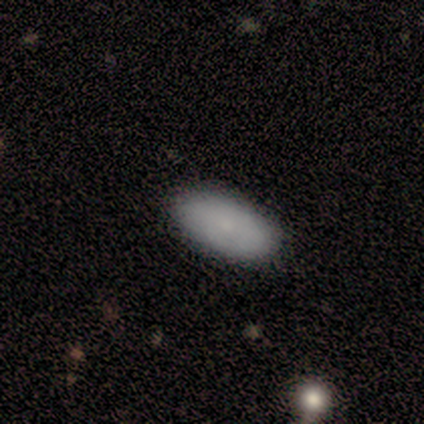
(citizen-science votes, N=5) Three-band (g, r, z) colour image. It shows a smooth galaxy with no disk features (80%) that is in between round and cigar-shaped (75%). Merging: none (80%).